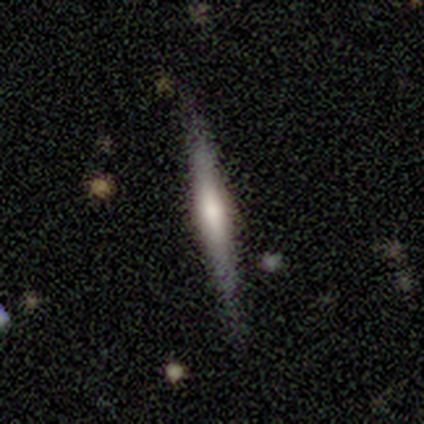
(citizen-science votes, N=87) Volunteers were most divided on "smooth or featured": featured or disk: 61%, smooth: 32%, star or artifact: 7%. More confident: edge-on disk — yes (96%); merging — none (89%); edge-on bulge — rounded (63%).